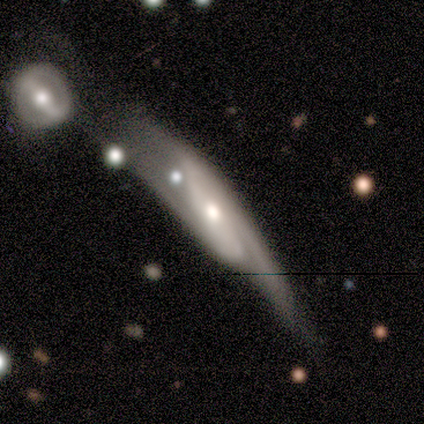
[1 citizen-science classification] Smooth or featured? featured or disk (100%)
Edge-on disk? yes (100%)
Edge-on bulge? rounded (100%)
Merging? none (100%)